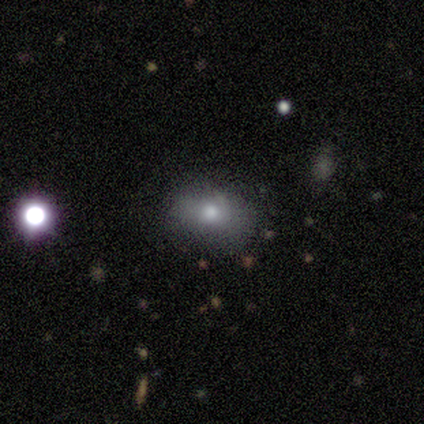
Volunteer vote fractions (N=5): This appears to be a smooth galaxy with no disk features (60%) that is round (100%). Merging: none (50%, tied with minor disturbance).